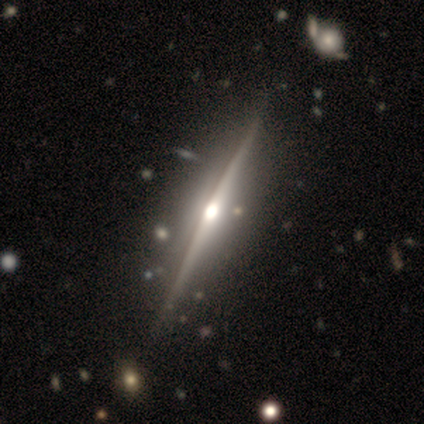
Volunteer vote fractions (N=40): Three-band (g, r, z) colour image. It shows a featured or disk galaxy (100%) viewed edge-on (98%) with a rounded central bulge (92%). Merging: none (68%).